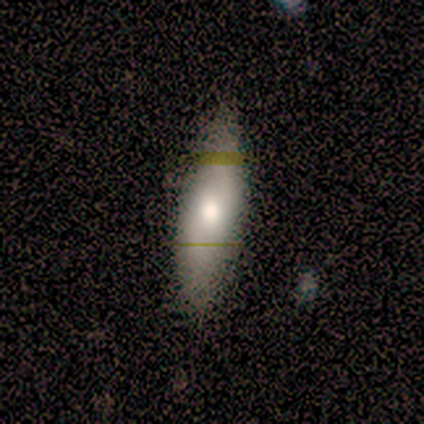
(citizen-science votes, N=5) Volunteers were most divided on "how rounded" (2-way tie): in between: 50%, cigar-shaped: 50%, round: 0%. More confident: smooth or featured — smooth (80%); merging — none (75%).